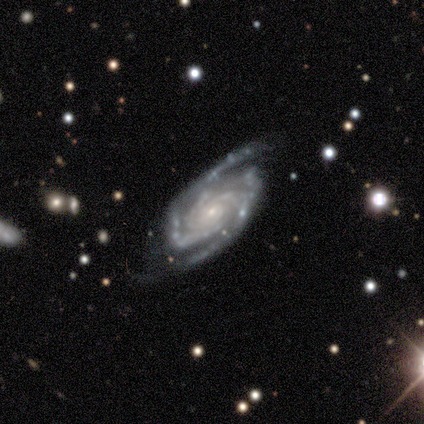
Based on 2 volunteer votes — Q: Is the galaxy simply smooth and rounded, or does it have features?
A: featured or disk — 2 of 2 (100%).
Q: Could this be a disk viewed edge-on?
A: no — 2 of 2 (100%).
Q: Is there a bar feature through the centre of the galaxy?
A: no — 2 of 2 (100%).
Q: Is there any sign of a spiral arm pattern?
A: yes — 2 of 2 (100%).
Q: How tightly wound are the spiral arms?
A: medium — 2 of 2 (100%).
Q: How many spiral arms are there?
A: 3 — 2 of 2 (100%).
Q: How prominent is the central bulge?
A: small — 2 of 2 (100%).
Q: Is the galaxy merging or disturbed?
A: minor disturbance — 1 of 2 (50%, tied with major disturbance).